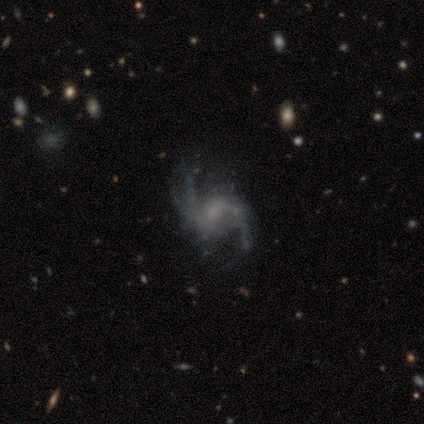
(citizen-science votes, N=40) smooth_or_featured: featured or disk (p=1.00)
disk_edge_on: no (p=1.00)
bar: no (p=0.47) [alt: weak p=0.45]
has_spiral_arms: yes (p=0.97) [alt: no p=0.03]
spiral_winding: loose (p=0.64) [alt: medium p=0.28]
spiral_arm_count: 2 (p=0.74) [alt: can't tell p=0.15]
bulge_size: small (p=0.50) [alt: none p=0.33]
merging: none (p=0.50) [alt: major disturbance p=0.20]